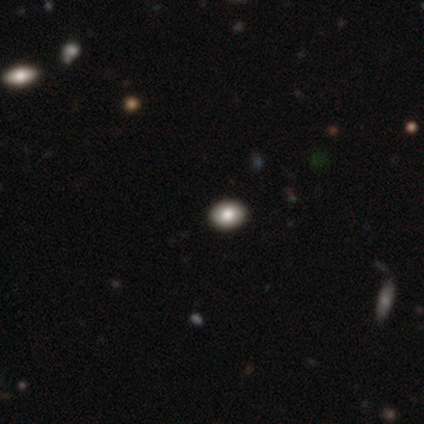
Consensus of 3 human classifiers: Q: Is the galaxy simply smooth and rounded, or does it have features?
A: smooth — 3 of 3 (100%).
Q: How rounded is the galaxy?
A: in between — 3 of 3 (100%).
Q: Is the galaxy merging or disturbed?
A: none — 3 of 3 (100%).